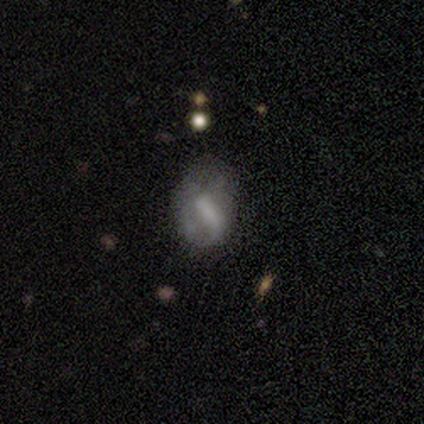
Smooth or featured? featured or disk (66%)
Edge-on disk? no (97%)
Bar? weak (39%, tied with no)
Spiral arms? no (64%)
Bulge size? none (61%)
Merging? none (40%, tied with minor disturbance)